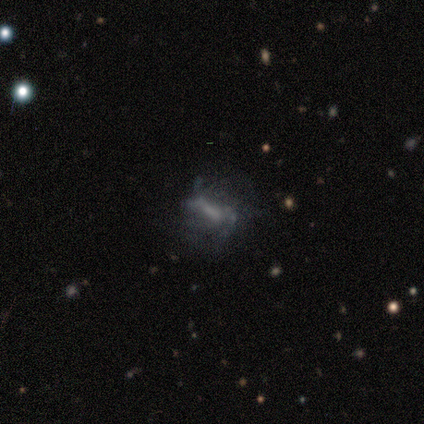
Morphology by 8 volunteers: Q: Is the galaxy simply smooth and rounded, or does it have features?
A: featured or disk — 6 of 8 (75%).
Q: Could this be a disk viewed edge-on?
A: no — 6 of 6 (100%).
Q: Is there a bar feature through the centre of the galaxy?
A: weak — 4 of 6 (67%).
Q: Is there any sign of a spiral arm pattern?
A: yes — 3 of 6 (50%, tied with no).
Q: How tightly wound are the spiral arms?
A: loose — 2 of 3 (67%).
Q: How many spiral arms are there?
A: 1 — 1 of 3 (33%, tied with 3 and can't tell).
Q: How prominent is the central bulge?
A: none — 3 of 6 (50%).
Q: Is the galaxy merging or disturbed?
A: none — 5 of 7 (71%).